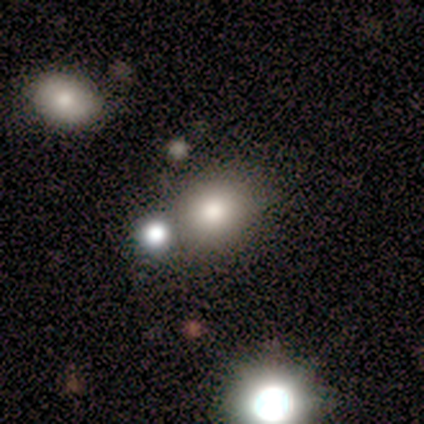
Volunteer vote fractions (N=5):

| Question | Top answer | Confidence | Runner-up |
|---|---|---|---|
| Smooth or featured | smooth | 60% | featured or disk (20%) |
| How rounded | round | 67% | in between (33%) |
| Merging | none | 100% | — |